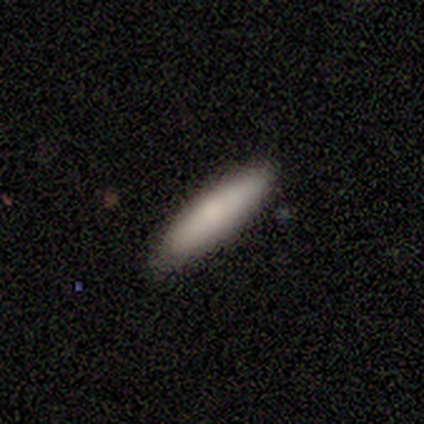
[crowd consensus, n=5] Q: Smooth or featured?
A: smooth (80%); runner-up: featured or disk (20%)
Q: How rounded?
A: cigar-shaped (75%); runner-up: in between (25%)
Q: Merging?
A: none (100%)